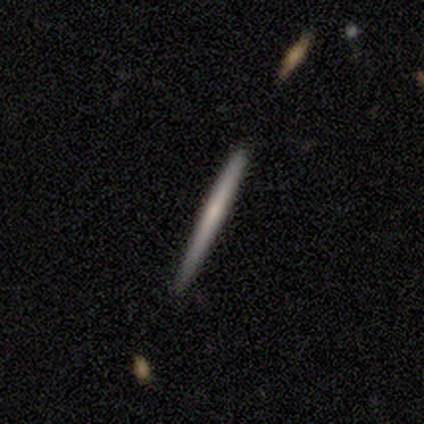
Overall: featured or disk (100%). Edge-on disk: yes (100%). Edge-on bulge: none (100%). Merging: none (100%).